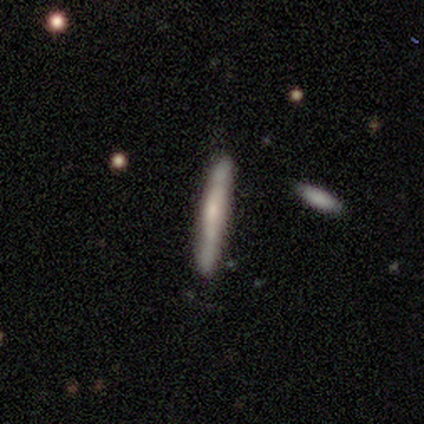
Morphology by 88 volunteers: Smooth or featured: smooth — 51% (featured or disk — 44%)
How rounded: cigar-shaped — 98% (in between — 2%)
Merging: none — 81% (minor disturbance — 11%)